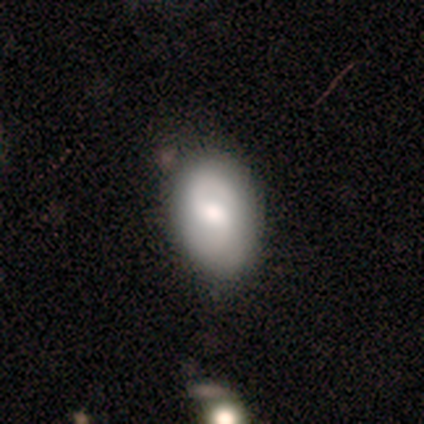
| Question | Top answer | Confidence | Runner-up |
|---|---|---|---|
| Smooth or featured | smooth | 60% | featured or disk (40%) |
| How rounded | in between | 67% | round (33%) |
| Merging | none | 60% | minor disturbance (40%) |